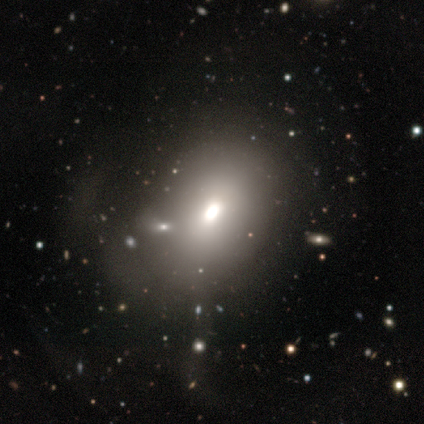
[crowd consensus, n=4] Volunteers were most divided on "bulge size" (2-way tie): large: 50%, moderate: 50%, dominant: 0%, small: 0%, none: 0%. More confident: edge-on disk — no (100%); bar — no (100%); spiral arms — no (100%); merging — none (100%); smooth or featured — featured or disk (50%).